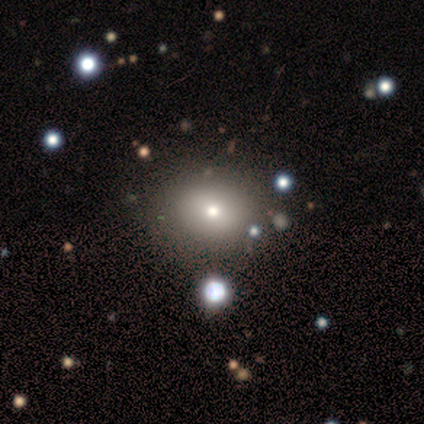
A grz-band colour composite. It shows a smooth galaxy with no disk features (60%) that is in between round and cigar-shaped (67%). Merging: none (75%).